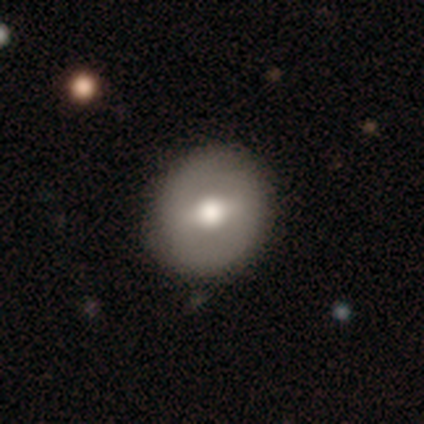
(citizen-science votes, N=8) This appears to be a smooth galaxy with no disk features (38%, tied with featured or disk) that is round (67%). Merging: none (100%).